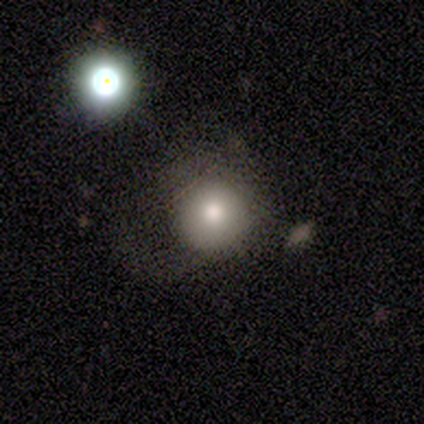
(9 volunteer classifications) Morphology: type=smooth (78%); roundness=round (86%); merging=none (62%).